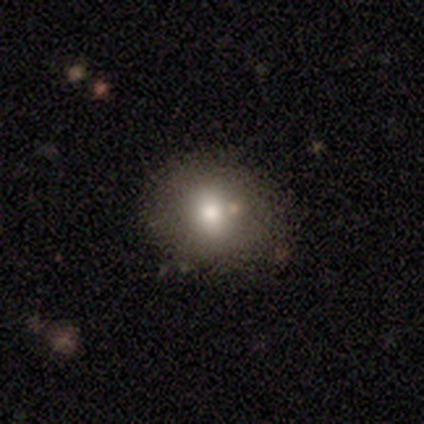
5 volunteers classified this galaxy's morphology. smooth_or_featured: smooth (p=0.60) [alt: featured or disk p=0.40]
how_rounded: round (p=0.67) [alt: in between p=0.33]
merging: none (p=0.80) [alt: minor disturbance p=0.20]